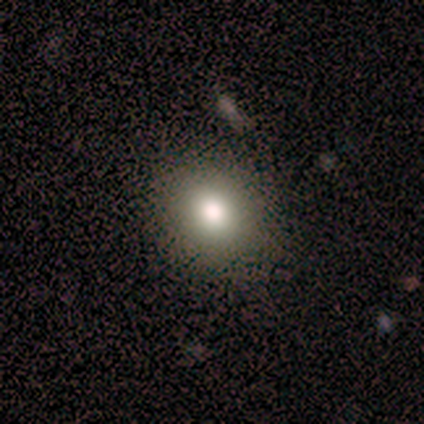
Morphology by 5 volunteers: smooth_or_featured: smooth (p=0.80) [alt: star or artifact p=0.20]
how_rounded: round (p=0.75) [alt: in between p=0.25]
merging: none (p=1.00)